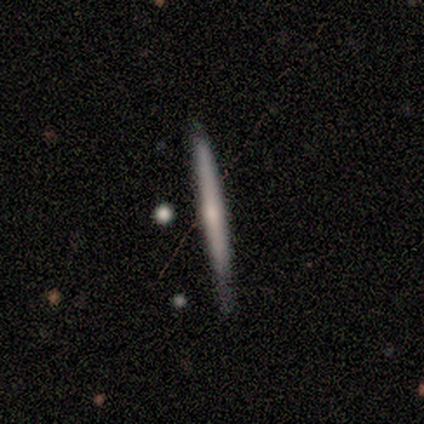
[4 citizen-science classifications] A featured or disk galaxy (75%) viewed edge-on (100%) with a rounded central bulge (67%).

Vote fractions:
- Smooth or featured? featured or disk: 75% / smooth: 25% / star or artifact: 0%
- Edge-on disk? yes: 100% / no: 0%
- Edge-on bulge? rounded: 67% / none: 33% / boxy: 0%
- Merging? none: 75% / minor disturbance: 25% / major disturbance: 0% / merger: 0%